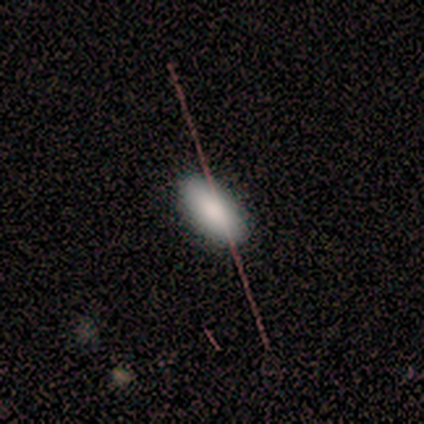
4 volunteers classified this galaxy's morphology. Volunteers were most divided on "merging": none: 75%, major disturbance: 25%, minor disturbance: 0%, merger: 0%. More confident: smooth or featured — smooth (100%); how rounded — in between (100%).